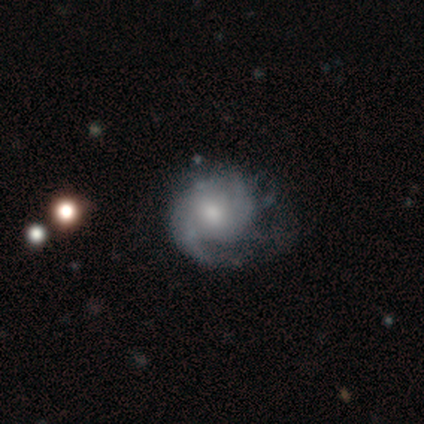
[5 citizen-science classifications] Smooth or featured? featured or disk (100%)
Edge-on disk? no (100%)
Bar? no (80%)
Spiral arms? yes (100%)
Spiral winding? tight (40%, tied with medium)
Spiral arm count? 2 (60%)
Bulge size? moderate (60%)
Merging? none (100%)